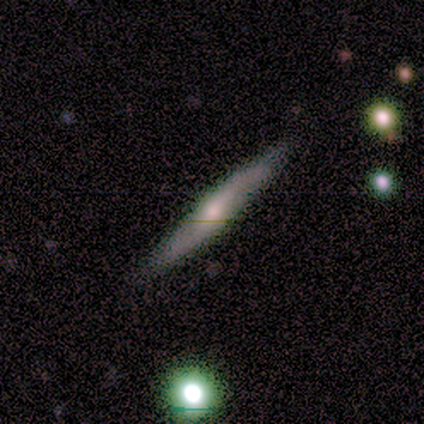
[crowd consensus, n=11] Overall: smooth (45%, tied with featured or disk). How rounded: cigar-shaped (100%). Merging: none (90%).